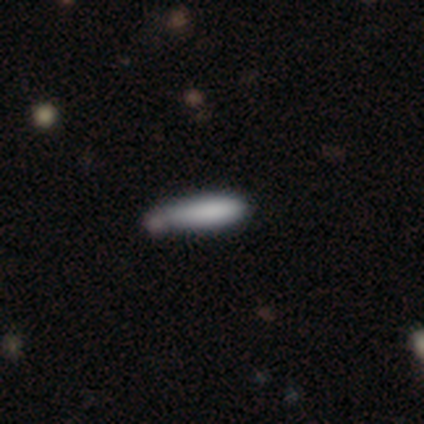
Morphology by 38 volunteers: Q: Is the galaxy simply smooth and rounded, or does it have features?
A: smooth — 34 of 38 (89%).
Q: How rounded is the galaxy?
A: cigar-shaped — 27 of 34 (79%).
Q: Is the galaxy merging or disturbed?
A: none — 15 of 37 (41%).